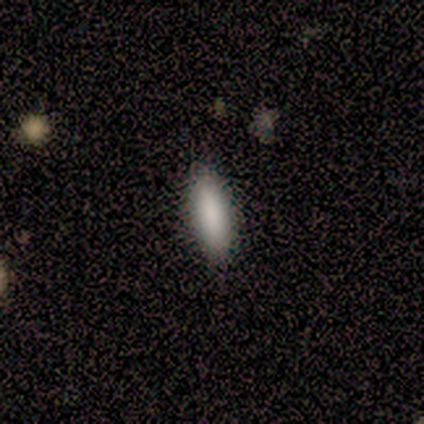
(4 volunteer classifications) smooth 100%, featured or disk 0%, star or artifact 0%. Down the decision tree: how rounded — in between (75%); merging — none (100%).